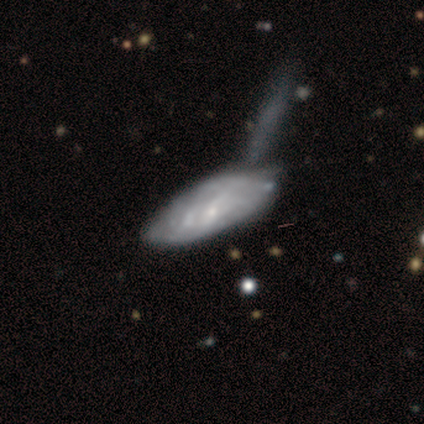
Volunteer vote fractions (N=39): Q: Smooth or featured?
A: featured or disk (62%); runner-up: smooth (33%)
Q: Edge-on disk?
A: no (92%); runner-up: yes (8%)
Q: Bar?
A: no (64%); runner-up: weak (27%)
Q: Spiral arms?
A: no (59%); runner-up: yes (41%)
Q: Bulge size?
A: small (64%); runner-up: none (27%)
Q: Merging?
A: merger (30%); runner-up: none (27%)